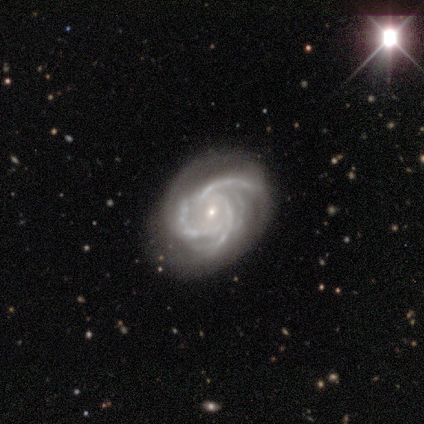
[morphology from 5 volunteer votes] Smooth or featured? 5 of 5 (100%) said featured or disk. Edge-on disk? 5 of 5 (100%) said no. Bar? 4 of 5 (80%) said no. Spiral arms? 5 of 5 (100%) said yes. Spiral winding? 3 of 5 (60%) said tight. Spiral arm count? 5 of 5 (100%) said 3. Bulge size? 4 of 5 (80%) said small. Merging? 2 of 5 (40%, tied with major disturbance) said none.